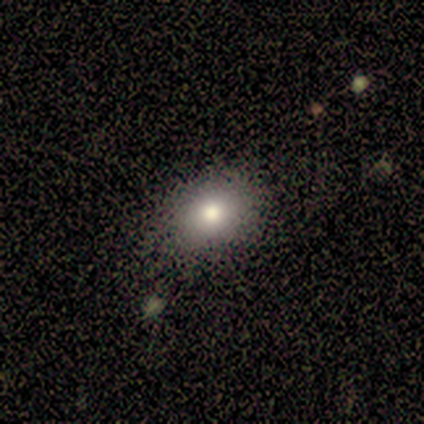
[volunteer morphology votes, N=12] Volunteers were most divided on "how rounded": in between: 62%, round: 38%, cigar-shaped: 0%. More confident: merging — none (82%); smooth or featured — smooth (67%).